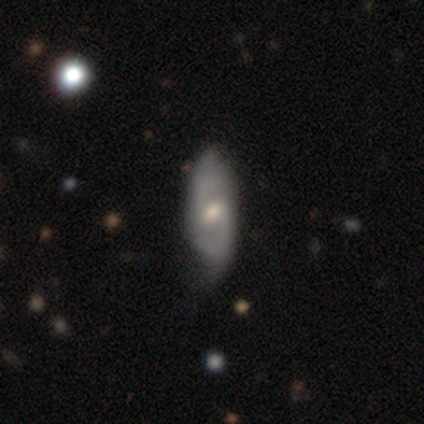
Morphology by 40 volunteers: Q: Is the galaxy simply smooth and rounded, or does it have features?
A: featured or disk — 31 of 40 (78%).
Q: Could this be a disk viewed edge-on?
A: no — 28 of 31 (90%).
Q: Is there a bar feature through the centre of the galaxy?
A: weak — 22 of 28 (79%).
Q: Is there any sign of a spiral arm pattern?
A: yes — 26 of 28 (93%).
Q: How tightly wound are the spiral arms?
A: medium — 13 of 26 (50%).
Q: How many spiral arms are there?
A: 2 — 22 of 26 (85%).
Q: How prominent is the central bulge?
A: moderate — 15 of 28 (54%).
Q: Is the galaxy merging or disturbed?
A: none — 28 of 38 (74%).